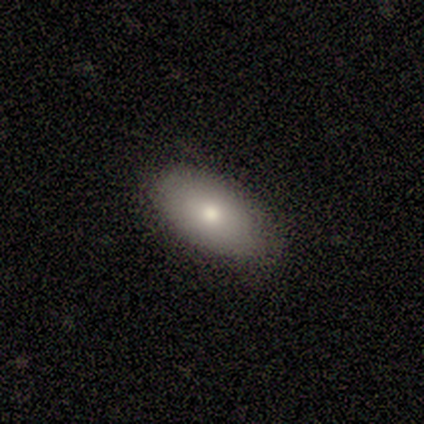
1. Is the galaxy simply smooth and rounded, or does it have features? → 60% featured or disk, 40% smooth, 0% star or artifact.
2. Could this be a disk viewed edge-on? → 100% no, 0% yes.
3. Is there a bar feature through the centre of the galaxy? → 100% no, 0% strong, 0% weak.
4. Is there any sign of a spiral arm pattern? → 100% no, 0% yes.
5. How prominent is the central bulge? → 100% small, 0% dominant, 0% large, 0% moderate, 0% none.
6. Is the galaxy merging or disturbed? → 100% none, 0% minor disturbance, 0% major disturbance, 0% merger.